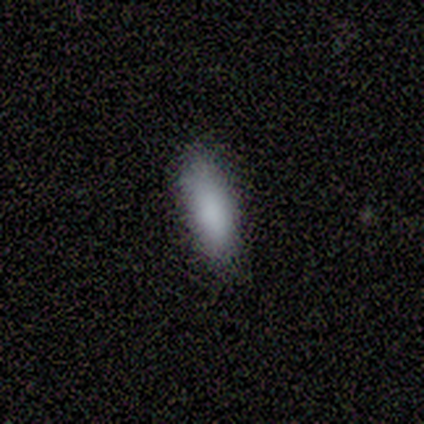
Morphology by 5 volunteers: Overall: smooth (100%). How rounded: in between (80%). Merging: none (100%).